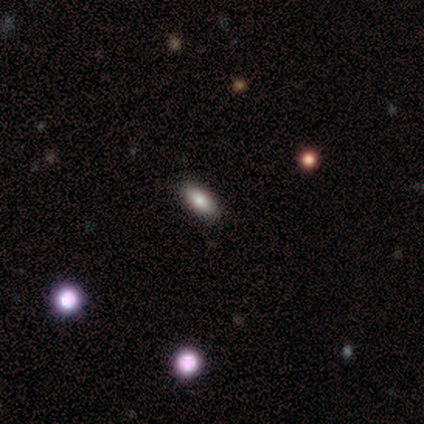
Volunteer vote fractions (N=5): Smooth or featured? 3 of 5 (60%) said smooth. How rounded? 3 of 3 (100%) said in between. Merging? 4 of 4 (100%) said none.